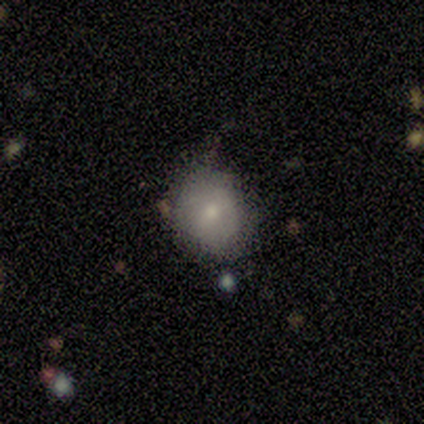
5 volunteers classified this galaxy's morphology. Smooth or featured? 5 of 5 (100%) said smooth. How rounded? 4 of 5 (80%) said round. Merging? 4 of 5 (80%) said none.